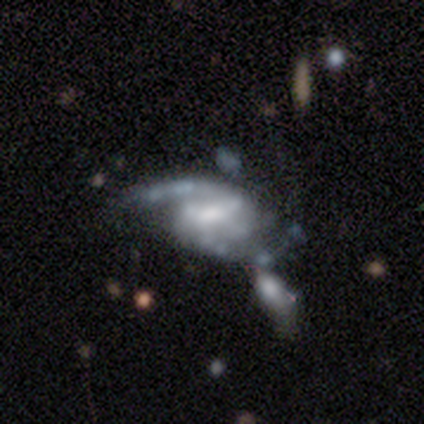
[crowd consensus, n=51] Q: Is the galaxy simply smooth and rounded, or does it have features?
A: featured or disk — 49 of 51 (96%).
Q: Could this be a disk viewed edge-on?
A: no — 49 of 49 (100%).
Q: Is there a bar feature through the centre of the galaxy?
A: weak — 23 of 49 (47%).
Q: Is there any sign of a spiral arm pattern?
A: yes — 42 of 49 (86%).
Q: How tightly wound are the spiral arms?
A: medium — 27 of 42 (64%).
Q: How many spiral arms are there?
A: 2 — 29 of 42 (69%).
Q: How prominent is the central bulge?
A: moderate — 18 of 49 (37%).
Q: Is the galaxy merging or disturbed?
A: major disturbance — 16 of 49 (33%).